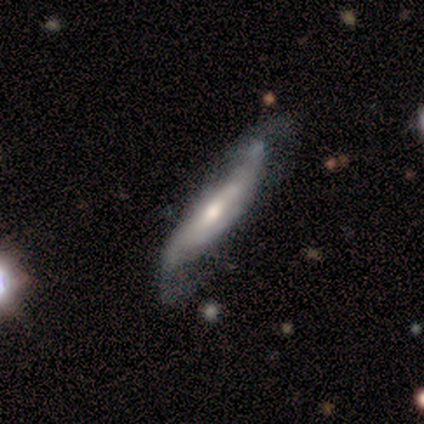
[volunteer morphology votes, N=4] Smooth or featured? 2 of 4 (50%, tied with featured or disk) said smooth. How rounded? 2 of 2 (100%) said cigar-shaped. Merging? 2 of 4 (50%) said none.